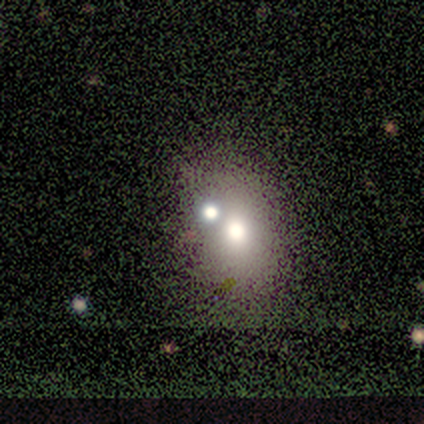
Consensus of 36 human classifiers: Q: Smooth or featured?
A: smooth (64%); runner-up: star or artifact (22%)
Q: How rounded?
A: in between (57%); runner-up: round (43%)
Q: Merging?
A: none (61%); runner-up: merger (32%)